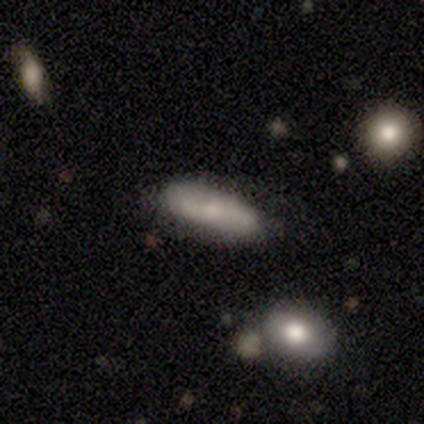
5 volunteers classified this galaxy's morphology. smooth-or-featured: smooth: 80% | featured or disk: 20% | star or artifact: 0%
  how-rounded: in between: 50% (tied) | cigar-shaped: 50% (tied) | round: 0%
  merging: none: 80% | minor disturbance: 20% | major disturbance: 0% | merger: 0%